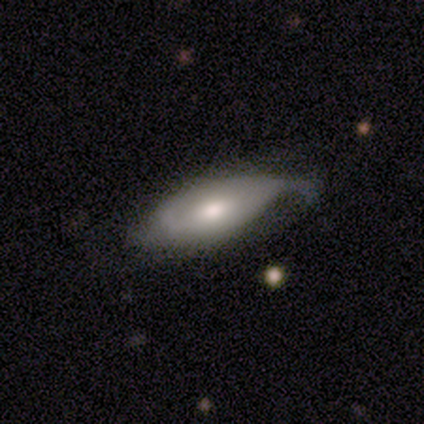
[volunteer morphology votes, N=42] Smooth or featured: featured or disk — 60% (smooth — 38%)
Edge-on disk: no — 84% (yes — 16%)
Bar: no — 67% (weak — 24%)
Spiral arms: yes — 86% (no — 14%)
Spiral winding: tight — 33% (tied with medium — 33%; loose — 33%)
Spiral arm count: 1 — 33% (tied with 2 — 33%)
Bulge size: moderate — 67% (large — 24%)
Merging: minor disturbance — 44% (none — 29%)